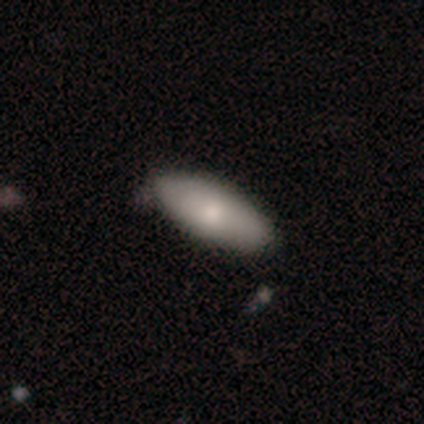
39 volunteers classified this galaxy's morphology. Volunteers were most divided on "merging": none: 78%, minor disturbance: 19%, merger: 3%, major disturbance: 0%. More confident: how rounded — in between (87%); smooth or featured — smooth (79%).